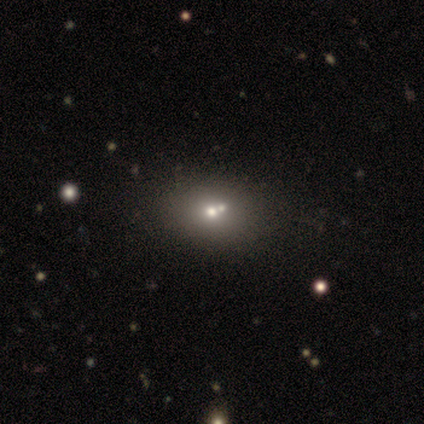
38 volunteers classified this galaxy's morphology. smooth 58%, featured or disk 26%, star or artifact 16%. Down the decision tree: how rounded — in between (64%); merging — none (38%).